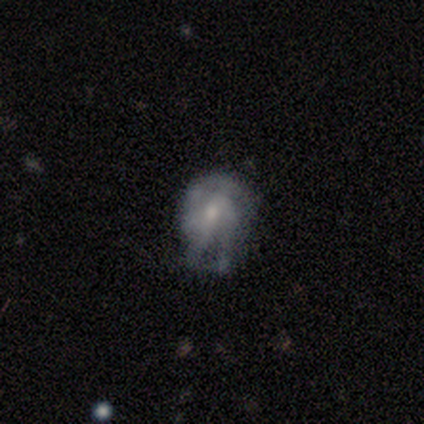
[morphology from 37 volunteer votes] Smooth or featured?
  - featured or disk: 49% *
  - smooth: 38%
  - star or artifact: 14%
Edge-on disk?
  - no: 94% *
  - yes: 6%
Bar?
  - no: 76% *
  - weak: 18%
  - strong: 6%
Spiral arms?
  - yes: 65% *
  - no: 35%
Spiral winding?
  - tight: 45% *
  - medium: 36%
  - loose: 18%
Spiral arm count?
  - can't tell: 45% *
  - 3: 27%
  - 2: 18%
  - 4: 9%
  - 1: 0%
  - more than 4: 0%
Bulge size?
  - small: 53% *
  - moderate: 35%
  - none: 12%
  - dominant: 0%
  - large: 0%
Merging?
  - none: 44% *
  - minor disturbance: 38%
  - major disturbance: 19%
  - merger: 0%